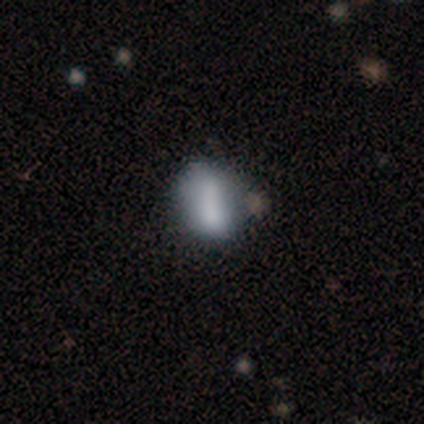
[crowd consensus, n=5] Smooth or featured? 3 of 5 (60%) said smooth. How rounded? 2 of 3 (67%) said in between. Merging? 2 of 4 (50%, tied with minor disturbance) said none.